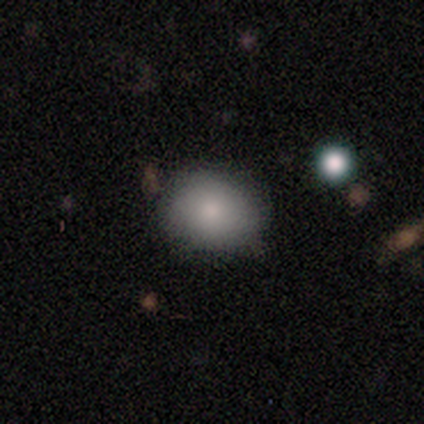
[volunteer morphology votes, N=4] Overall: smooth (75%). How rounded: round (67%; in between 33%). Merging: none (100%).